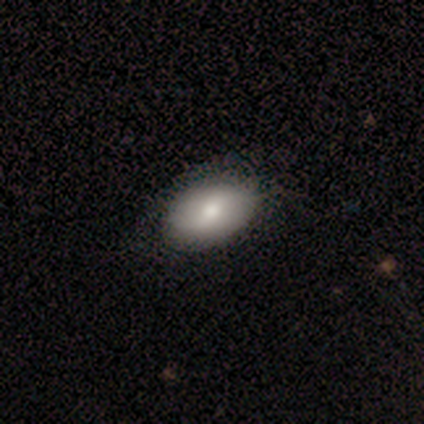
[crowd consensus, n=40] A smooth galaxy with no disk features (75%) that is in between round and cigar-shaped (97%). Merging: none (59%).